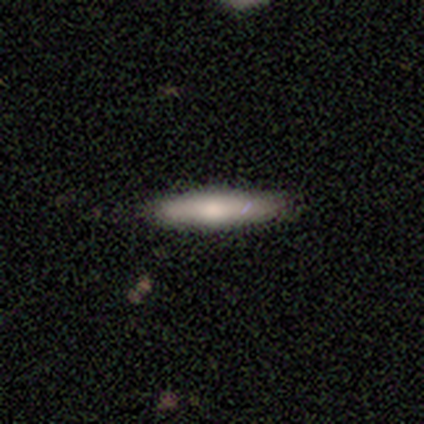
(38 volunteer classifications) Morphology: type=smooth (76%); roundness=cigar-shaped (86%); merging=none (92%).